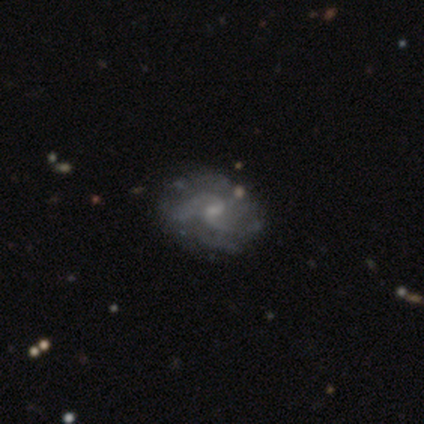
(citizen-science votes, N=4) Smooth or featured? featured or disk (100%)
Edge-on disk? no (100%)
Bar? weak (50%)
Spiral arms? yes (100%)
Spiral winding? medium (75%)
Spiral arm count? 2 (75%)
Bulge size? small (75%)
Merging? none (50%)